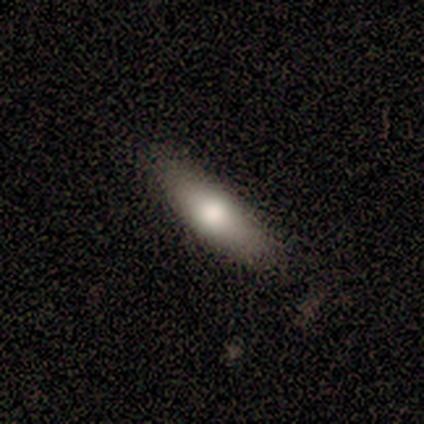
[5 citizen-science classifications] Smooth or featured?
  - smooth: 80% *
  - featured or disk: 20%
  - star or artifact: 0%
How rounded?
  - in between: 50% * (tied)
  - cigar-shaped: 50% * (tied)
  - round: 0%
Merging?
  - none: 60% *
  - minor disturbance: 20%
  - major disturbance: 20%
  - merger: 0%